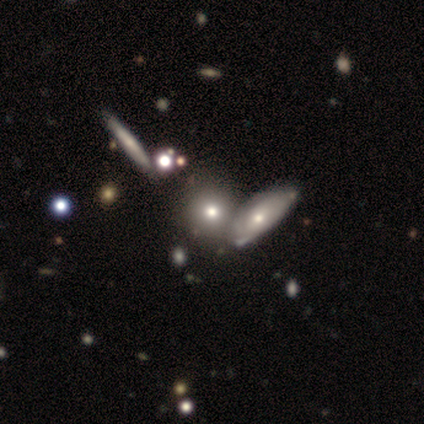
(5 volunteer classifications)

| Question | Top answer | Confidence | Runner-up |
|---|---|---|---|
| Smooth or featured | smooth | 100% | — |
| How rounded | round | 80% | cigar-shaped (20%) |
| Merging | none | 40% | minor disturbance (20%) |